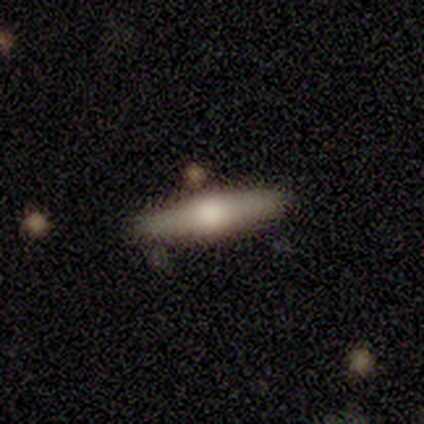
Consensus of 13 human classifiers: Smooth or featured?
  - smooth: 69% *
  - featured or disk: 15%
  - star or artifact: 15%
How rounded?
  - cigar-shaped: 67% *
  - in between: 33%
  - round: 0%
Merging?
  - none: 91% *
  - merger: 9%
  - minor disturbance: 0%
  - major disturbance: 0%